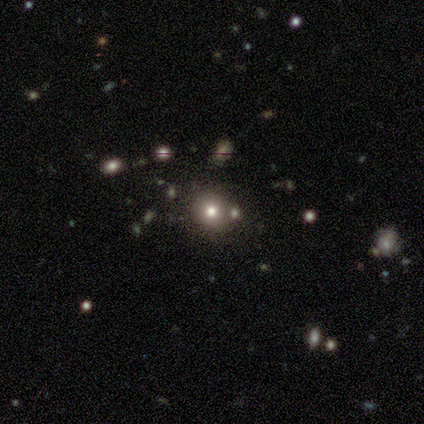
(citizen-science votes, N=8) Smooth or featured?
  - smooth: 100% *
  - featured or disk: 0%
  - star or artifact: 0%
How rounded?
  - round: 75% *
  - in between: 25%
  - cigar-shaped: 0%
Merging?
  - none: 62% *
  - merger: 25%
  - minor disturbance: 12%
  - major disturbance: 0%